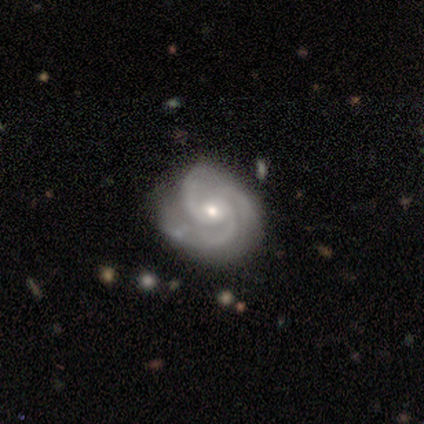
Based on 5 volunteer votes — Morphology: type=featured or disk (100%); edge-on=no (100%); bar=no (80%); spiral arms=yes (100%); winding=tight (60%); arm count=3 (80%); bulge=small (80%); merging=none (80%).